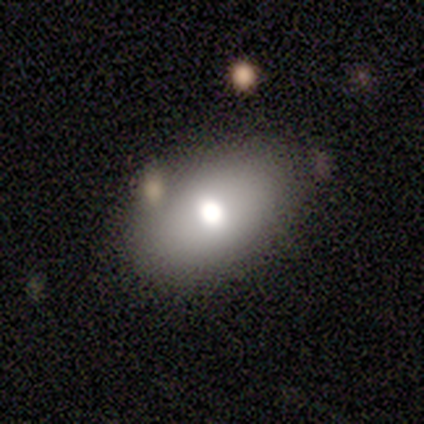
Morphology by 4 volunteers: Smooth or featured: smooth — 50% (tied with featured or disk — 50%)
How rounded: in between — 100%
Merging: none — 100%